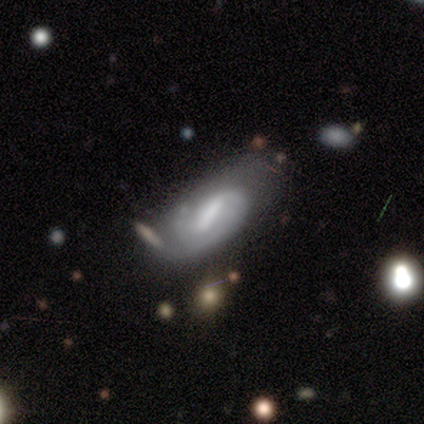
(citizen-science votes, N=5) Volunteers were most divided on "smooth or featured": smooth: 60%, featured or disk: 40%, star or artifact: 0%. More confident: how rounded — in between (100%); merging — major disturbance (60%).